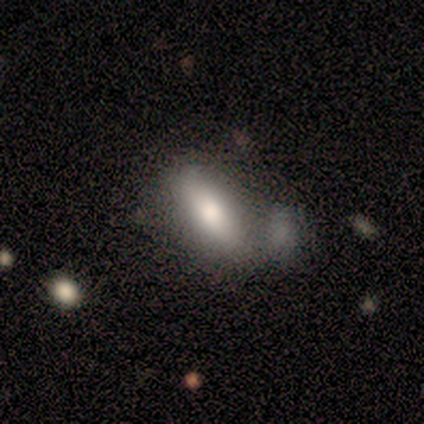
smooth_or_featured: smooth (p=0.71) [alt: featured or disk p=0.29]
how_rounded: in between (p=1.00)
merging: merger (p=0.43) [alt: none p=0.29]